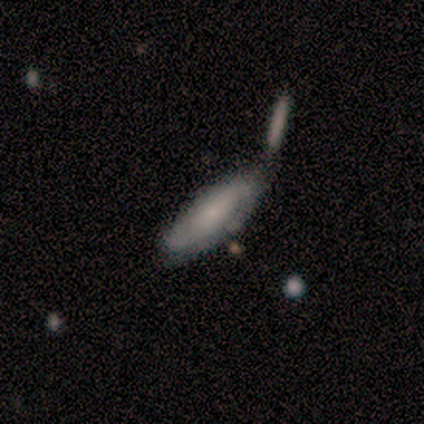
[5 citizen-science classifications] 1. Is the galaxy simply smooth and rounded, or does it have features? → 40% smooth (tied), 40% star or artifact (tied), 20% featured or disk.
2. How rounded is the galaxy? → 100% cigar-shaped, 0% round, 0% in between.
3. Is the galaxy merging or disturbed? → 67% none, 33% merger, 0% minor disturbance, 0% major disturbance.